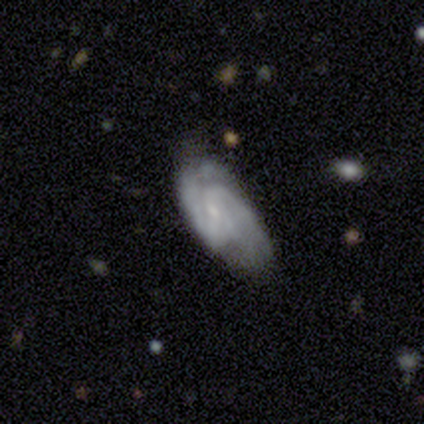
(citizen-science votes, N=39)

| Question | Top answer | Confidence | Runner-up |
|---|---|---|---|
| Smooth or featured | featured or disk | 87% | smooth (10%) |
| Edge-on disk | no | 94% | yes (6%) |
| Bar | weak | 53% | no (41%) |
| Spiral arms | yes | 91% | no (9%) |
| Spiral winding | medium | 59% | tight (28%) |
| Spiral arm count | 2 | 76% | can't tell (17%) |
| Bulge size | small | 62% | moderate (19%) |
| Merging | none | 50% | minor disturbance (32%) |